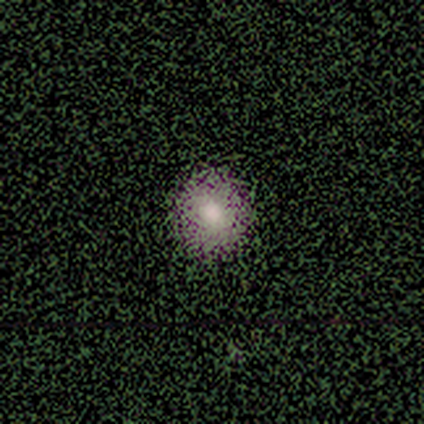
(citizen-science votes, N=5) Smooth or featured?
  - smooth: 60% *
  - featured or disk: 20%
  - star or artifact: 20%
How rounded?
  - round: 100% *
  - in between: 0%
  - cigar-shaped: 0%
Merging?
  - none: 100% *
  - minor disturbance: 0%
  - major disturbance: 0%
  - merger: 0%